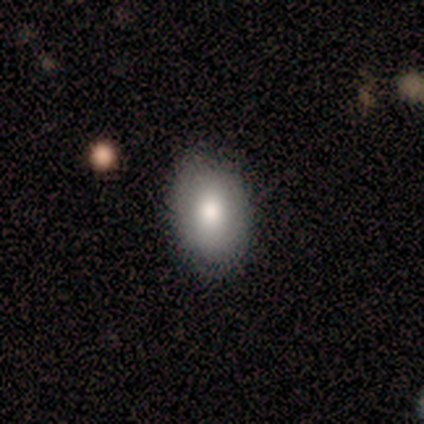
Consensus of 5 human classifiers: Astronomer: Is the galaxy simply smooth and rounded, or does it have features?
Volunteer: featured or disk — 60% (runner-up: smooth, 40%).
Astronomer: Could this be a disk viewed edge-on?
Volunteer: no — 100%.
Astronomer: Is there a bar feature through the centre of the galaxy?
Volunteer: weak — 67%.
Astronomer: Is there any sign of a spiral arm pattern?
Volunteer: no — 67%.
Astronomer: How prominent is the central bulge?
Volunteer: moderate — 67%.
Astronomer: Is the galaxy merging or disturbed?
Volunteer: none — 80%.